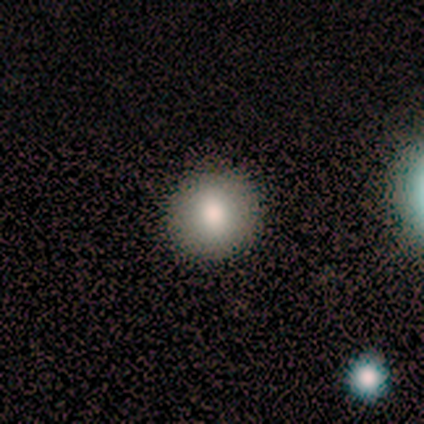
smooth-or-featured: smooth: 75% | star or artifact: 25% | featured or disk: 0%
  how-rounded: round: 100% | in between: 0% | cigar-shaped: 0%
  merging: none: 100% | minor disturbance: 0% | major disturbance: 0% | merger: 0%